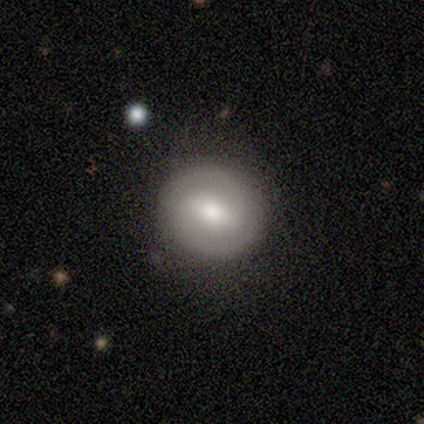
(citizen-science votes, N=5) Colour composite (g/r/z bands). It shows a smooth galaxy with no disk features (40%, tied with star or artifact) that is round (50%, tied with in between). Merging: none (100%).